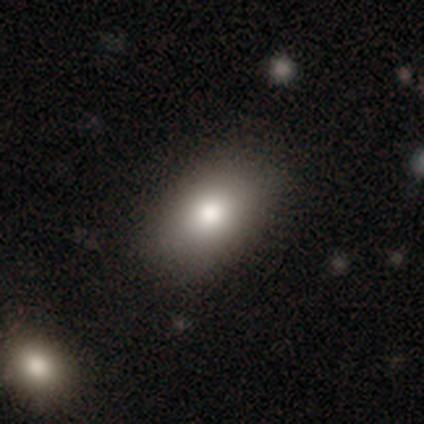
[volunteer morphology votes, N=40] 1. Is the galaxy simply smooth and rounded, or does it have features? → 80% smooth, 12% featured or disk, 8% star or artifact.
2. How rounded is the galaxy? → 81% in between, 19% round, 0% cigar-shaped.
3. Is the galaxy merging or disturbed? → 78% none, 16% minor disturbance, 5% major disturbance, 0% merger.